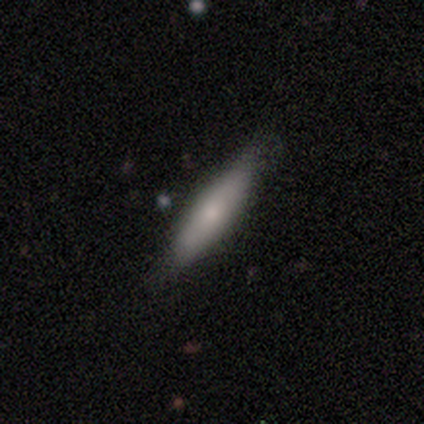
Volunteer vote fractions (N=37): Q: Smooth or featured?
A: smooth (62%); runner-up: featured or disk (38%)
Q: How rounded?
A: cigar-shaped (96%); runner-up: in between (4%)
Q: Merging?
A: none (78%); runner-up: minor disturbance (22%)